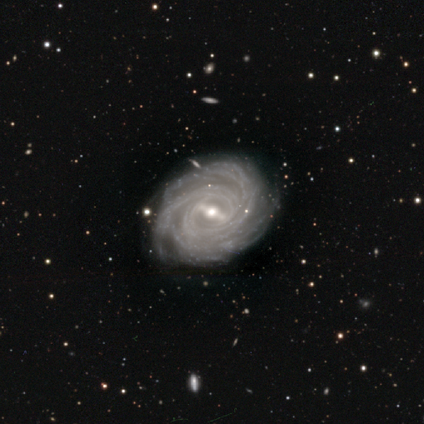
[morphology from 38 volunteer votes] smooth-or-featured: featured or disk: 95% | smooth: 3% | star or artifact: 3%
  disk-edge-on: no: 100% | yes: 0%
    bar: strong: 56% | weak: 39% | no: 6%
    has-spiral-arms: yes: 100% | no: 0%
      spiral-winding: tight: 89% | medium: 8% | loose: 3%
      spiral-arm-count: more than 4: 39% | can't tell: 28% | 3: 22% | 2: 6% | 4: 6% | 1: 0%
    bulge-size: moderate: 64% | small: 33% | large: 3% | dominant: 0% | none: 0%
  merging: none: 81% | minor disturbance: 14% | major disturbance: 5% | merger: 0%